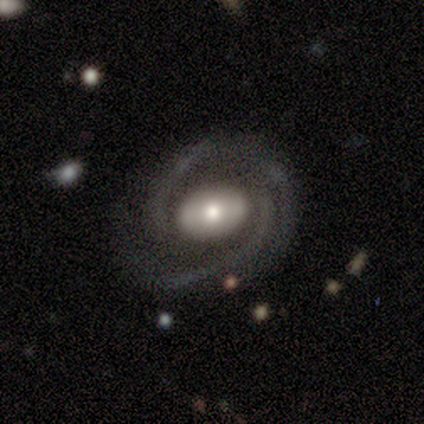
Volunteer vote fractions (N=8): Q: Smooth or featured?
A: featured or disk (100%)
Q: Edge-on disk?
A: no (100%)
Q: Bar?
A: no (62%); runner-up: weak (38%)
Q: Spiral arms?
A: yes (100%)
Q: Spiral winding?
A: tight (38%); tied with: medium (38%)
Q: Spiral arm count?
A: 3 (62%); runner-up: 2 (38%)
Q: Bulge size?
A: moderate (50%); runner-up: small (38%)
Q: Merging?
A: none (62%); runner-up: minor disturbance (25%)